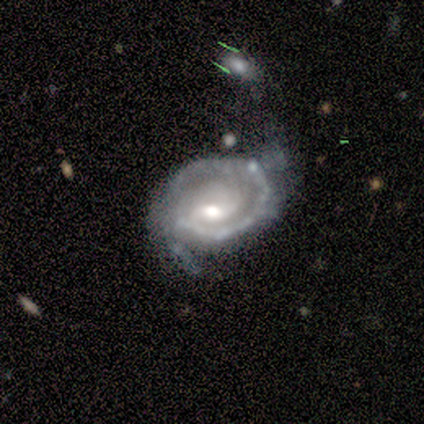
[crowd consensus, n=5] This appears to be a featured or disk galaxy (100%) with no bar (60%), 1 (50%) tight (50%, tied with medium) spiral arms (80%) and a moderate central bulge (80%). Merging: major disturbance (60%).